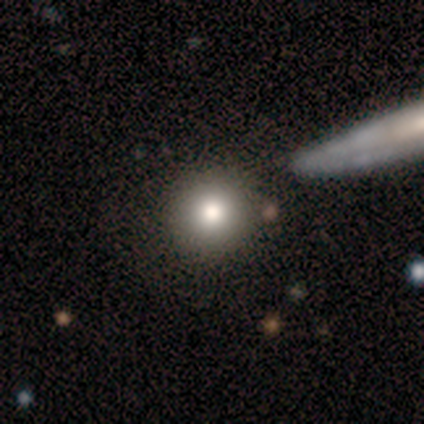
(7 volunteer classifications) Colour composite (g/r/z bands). It shows a smooth galaxy with no disk features (86%) that is round (83%). Merging: none (100%).